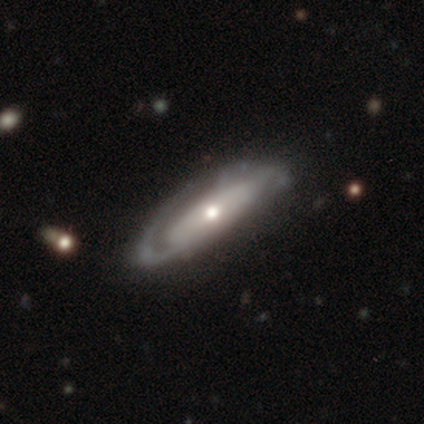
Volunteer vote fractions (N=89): smooth-or-featured: featured or disk: 79% | smooth: 19% | star or artifact: 2%
  disk-edge-on: no: 76% | yes: 24%
    bar: no: 64% | strong: 23% | weak: 13%
    has-spiral-arms: yes: 81% | no: 19%
      spiral-winding: tight: 60% | medium: 30% | loose: 9%
      spiral-arm-count: can't tell: 42% | 2: 35% | 1: 23% | 3: 0% | 4: 0% | more than 4: 0%
    bulge-size: small: 49% | moderate: 45% | large: 4% | dominant: 2% | none: 0%
  merging: none: 64% | minor disturbance: 24% | major disturbance: 9% | merger: 2%